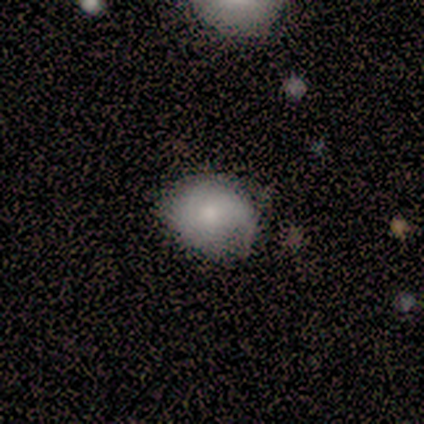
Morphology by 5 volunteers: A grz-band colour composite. It shows a smooth galaxy with no disk features (60%) that is round (67%). Merging: none (100%).